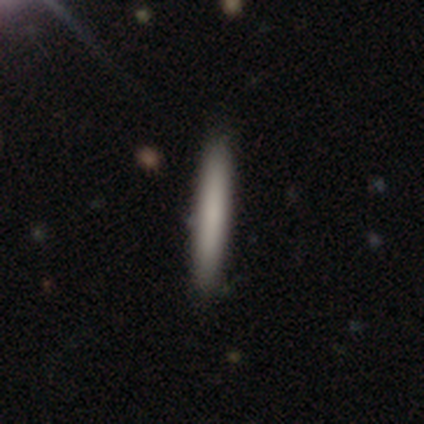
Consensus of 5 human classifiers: smooth-or-featured: smooth: 80% | featured or disk: 20% | star or artifact: 0%
  how-rounded: cigar-shaped: 100% | round: 0% | in between: 0%
  merging: none: 100% | minor disturbance: 0% | major disturbance: 0% | merger: 0%